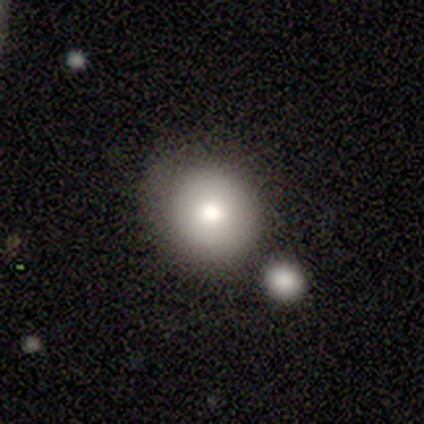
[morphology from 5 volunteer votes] This is likely a smooth galaxy (60%). How rounded: likely round (67%). Merging: clearly none (80%).